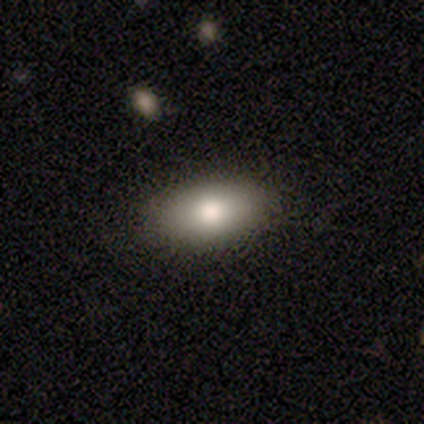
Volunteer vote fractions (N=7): Q: Smooth or featured?
A: smooth (57%); runner-up: featured or disk (29%)
Q: How rounded?
A: in between (100%)
Q: Merging?
A: none (83%); runner-up: minor disturbance (17%)